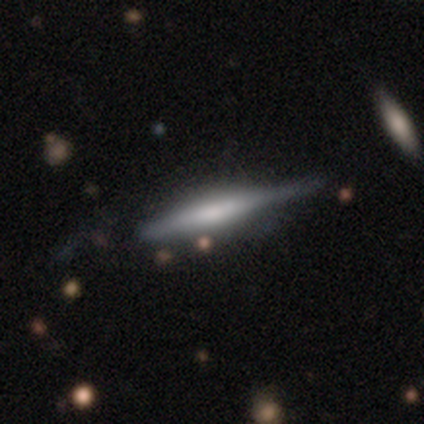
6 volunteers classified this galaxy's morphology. This appears to be a featured or disk galaxy (83%) viewed edge-on (100%) with a boxy central bulge (40%, tied with rounded). Merging: none (67%).